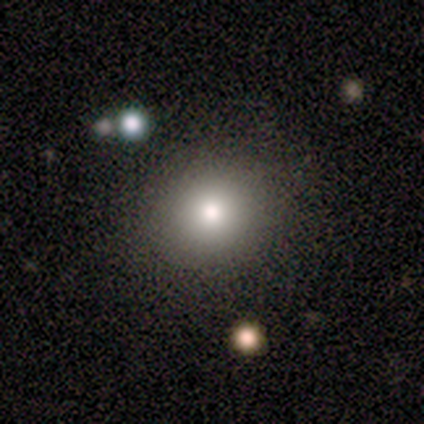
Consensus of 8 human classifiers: Smooth or featured? smooth (75%)
How rounded? round (50%, tied with in between)
Merging? none (100%)